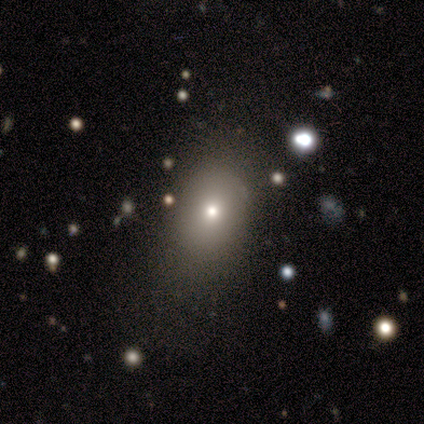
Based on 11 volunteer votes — Morphology: type=smooth (100%); roundness=in between (55%); merging=none (73%).